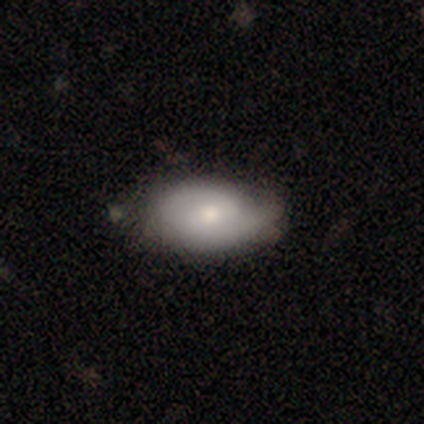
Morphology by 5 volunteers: type=smooth (60%); roundness=in between (100%); merging=none (80%).